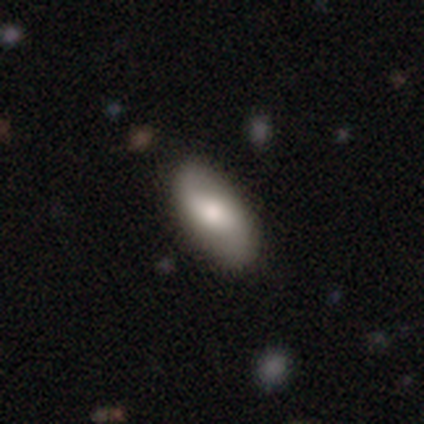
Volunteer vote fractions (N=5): Smooth or featured: smooth — 80% (featured or disk — 20%)
How rounded: in between — 75% (cigar-shaped — 25%)
Merging: none — 100%